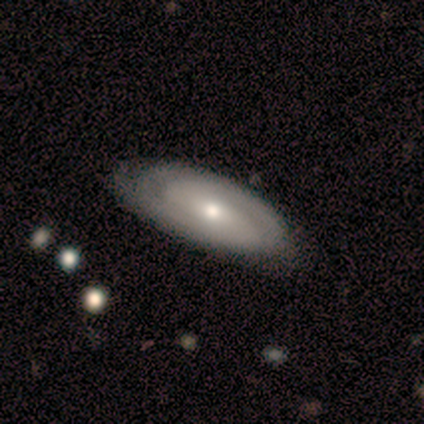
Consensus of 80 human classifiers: A featured or disk galaxy (75%) with no bar (56%), 2 (67%) tight (49%) spiral arms (90%) and a small central bulge (50%). Merging: none (38%).